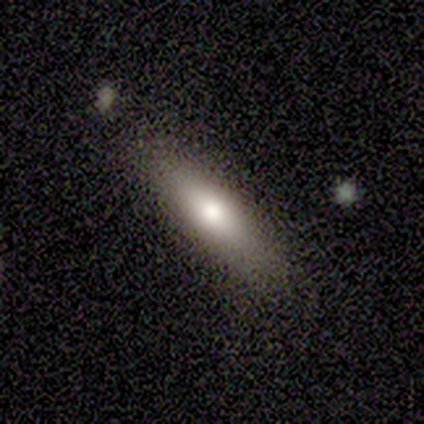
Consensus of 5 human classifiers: smooth-or-featured: smooth: 60% | featured or disk: 40% | star or artifact: 0%
  how-rounded: cigar-shaped: 67% | in between: 33% | round: 0%
  merging: none: 100% | minor disturbance: 0% | major disturbance: 0% | merger: 0%